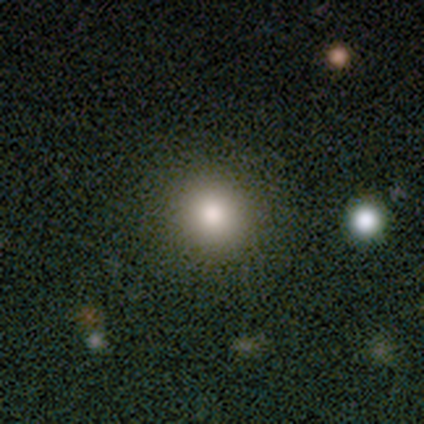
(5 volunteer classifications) Overall: smooth (40%, tied with star or artifact). How rounded: round (100%). Merging: none (100%).